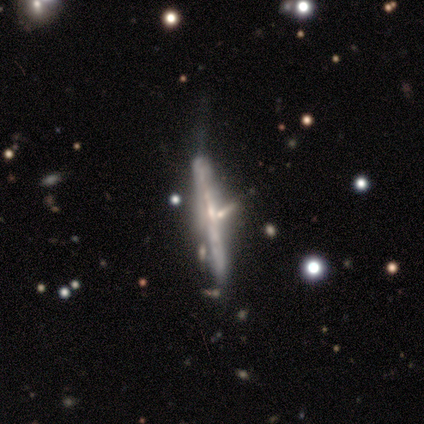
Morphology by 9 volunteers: A featured or disk galaxy (67%) viewed edge-on (100%) with no central bulge (50%, tied with rounded). Merging: none (62%).